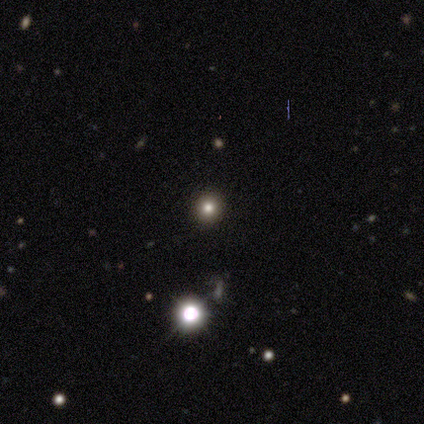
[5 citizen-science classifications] Smooth or featured: smooth — 60% (star or artifact — 40%)
How rounded: round — 100%
Merging: none — 100%